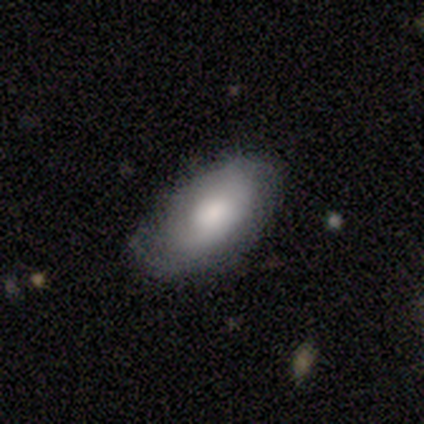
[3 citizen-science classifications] Smooth or featured?
  - smooth: 67% *
  - featured or disk: 33%
  - star or artifact: 0%
How rounded?
  - in between: 100% *
  - round: 0%
  - cigar-shaped: 0%
Merging?
  - none: 100% *
  - minor disturbance: 0%
  - major disturbance: 0%
  - merger: 0%